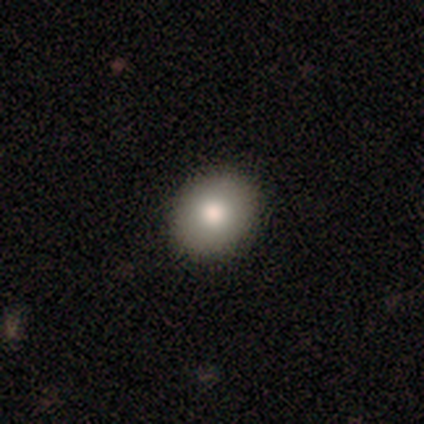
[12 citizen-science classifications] Smooth or featured: smooth — 92% (featured or disk — 8%)
How rounded: in between — 82% (round — 18%)
Merging: none — 92% (minor disturbance — 8%)